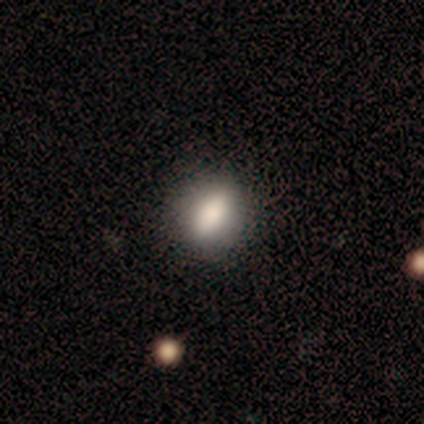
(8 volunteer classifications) smooth_or_featured: smooth (p=1.00)
how_rounded: in between (p=0.88) [alt: round p=0.12]
merging: none (p=1.00)